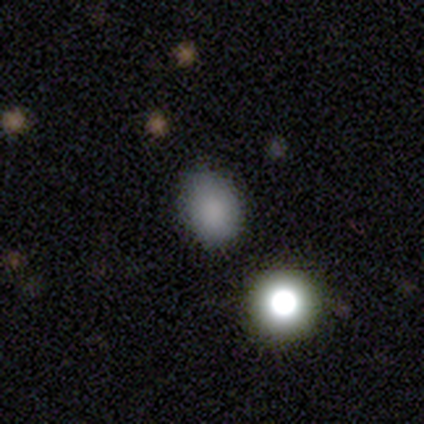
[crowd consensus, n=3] Q: Smooth or featured?
A: smooth (100%)
Q: How rounded?
A: in between (67%); runner-up: round (33%)
Q: Merging?
A: none (67%); runner-up: minor disturbance (33%)